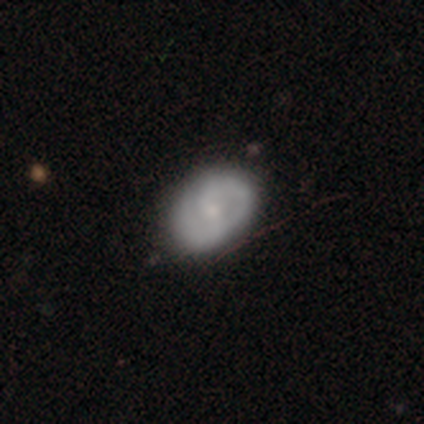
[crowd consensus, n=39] A featured or disk galaxy (82%) with no bar (47%), 2 (77%) medium (52%) spiral arms (97%) and a small central bulge (53%).

Vote fractions:
- Smooth or featured? featured or disk: 82% / smooth: 15% / star or artifact: 3%
- Edge-on disk? no: 100% / yes: 0%
- Bar? no: 47% / weak: 44% / strong: 9%
- Spiral arms? yes: 97% / no: 3%
- Spiral winding? medium: 52% / tight: 35% / loose: 13%
- Spiral arm count? 2: 77% / 1: 13% / can't tell: 10% / 3: 0% / 4: 0% / more than 4: 0%
- Bulge size? small: 53% / moderate: 41% / none: 6% / dominant: 0% / large: 0%
- Merging? none: 76% / major disturbance: 5% / minor disturbance: 3% / merger: 3%